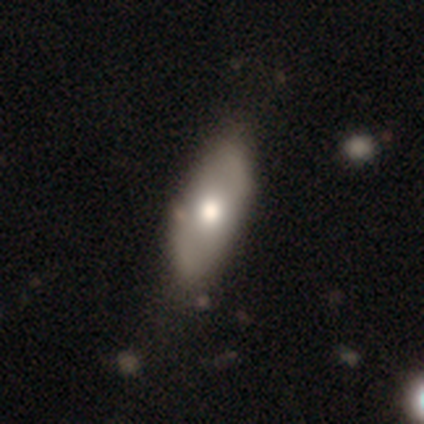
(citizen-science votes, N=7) Smooth or featured?
  - smooth: 71% *
  - featured or disk: 29%
  - star or artifact: 0%
How rounded?
  - in between: 100% *
  - round: 0%
  - cigar-shaped: 0%
Merging?
  - none: 71% *
  - minor disturbance: 29%
  - major disturbance: 0%
  - merger: 0%